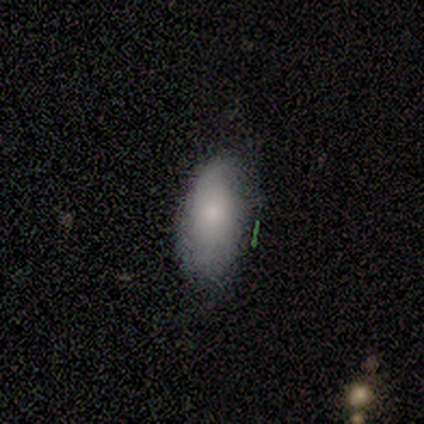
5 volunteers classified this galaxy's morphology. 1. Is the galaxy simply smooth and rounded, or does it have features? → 60% smooth, 40% featured or disk, 0% star or artifact.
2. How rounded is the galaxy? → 100% in between, 0% round, 0% cigar-shaped.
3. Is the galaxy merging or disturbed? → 80% none, 20% minor disturbance, 0% major disturbance, 0% merger.